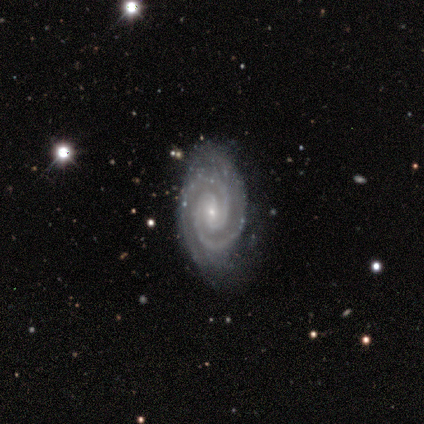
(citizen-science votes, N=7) A featured or disk galaxy (100%) with no bar (71%), 2 (86%) tight (71%) spiral arms (100%) and a small central bulge (100%). Merging: none (57%).